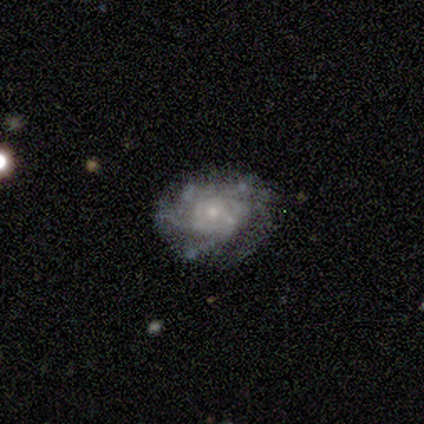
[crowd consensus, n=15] smooth_or_featured: featured or disk (p=0.87) [alt: smooth p=0.13]
disk_edge_on: no (p=0.92) [alt: yes p=0.08]
bar: no (p=0.83) [alt: weak p=0.17]
has_spiral_arms: yes (p=1.00)
spiral_winding: tight (p=0.50) [alt: medium p=0.42]
spiral_arm_count: can't tell (p=0.58) [alt: 4 p=0.33]
bulge_size: small (p=0.67) [alt: moderate p=0.33]
merging: none (p=0.80) [alt: minor disturbance p=0.13]